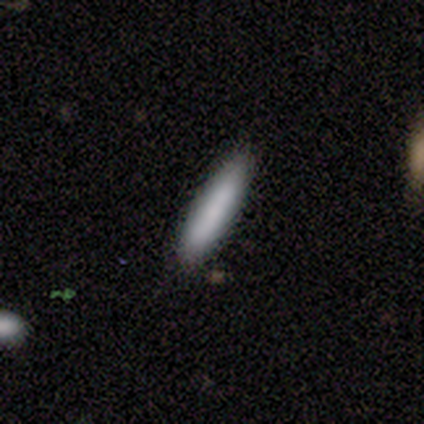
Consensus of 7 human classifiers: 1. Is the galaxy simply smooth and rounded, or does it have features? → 86% smooth, 14% featured or disk, 0% star or artifact.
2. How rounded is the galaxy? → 100% cigar-shaped, 0% round, 0% in between.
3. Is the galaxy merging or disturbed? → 71% none, 29% minor disturbance, 0% major disturbance, 0% merger.